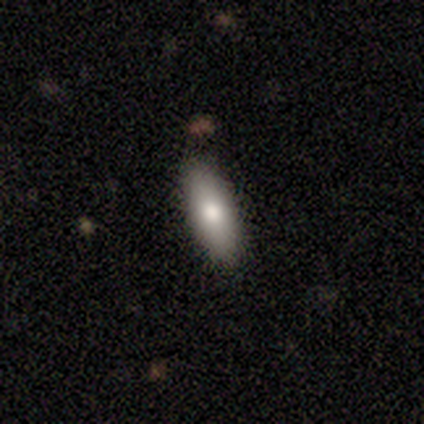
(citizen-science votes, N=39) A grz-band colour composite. It shows a smooth galaxy with no disk features (67%) that is in between round and cigar-shaped (65%). Merging: none (91%).